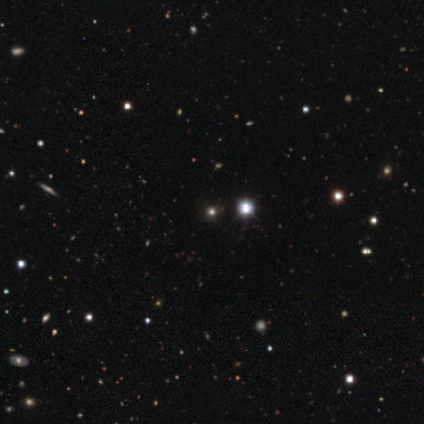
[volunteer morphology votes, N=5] A star or artifact, not a galaxy (80%).

Vote fractions:
- Smooth or featured? star or artifact: 80% / smooth: 20% / featured or disk: 0%